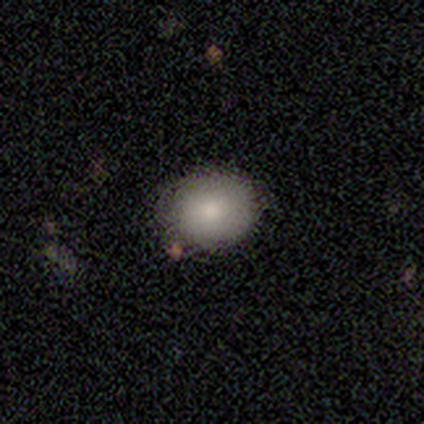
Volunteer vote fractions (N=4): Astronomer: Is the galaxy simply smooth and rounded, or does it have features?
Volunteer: smooth — 100%.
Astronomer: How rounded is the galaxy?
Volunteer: round — 100%.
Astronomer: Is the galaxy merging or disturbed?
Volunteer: none — 100%.